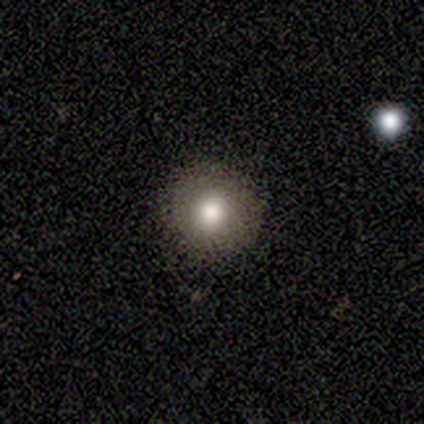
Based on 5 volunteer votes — A smooth galaxy with no disk features (100%) that is round (100%). Merging: none (80%).